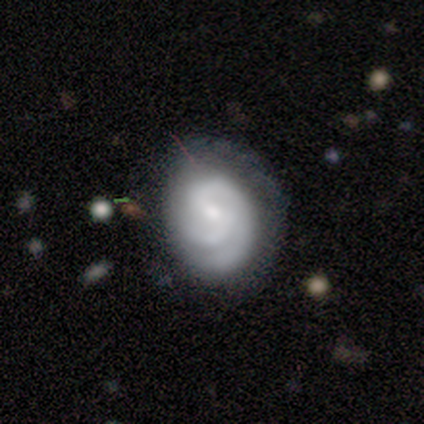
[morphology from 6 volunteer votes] Volunteers were most divided on "bar": weak: 67%, no: 33%, strong: 0%. More confident: smooth or featured — featured or disk (100%); edge-on disk — no (100%); spiral arms — yes (100%); spiral arm count — 2 (83%); merging — none (83%); spiral winding — tight (67%); bulge size — moderate (67%).